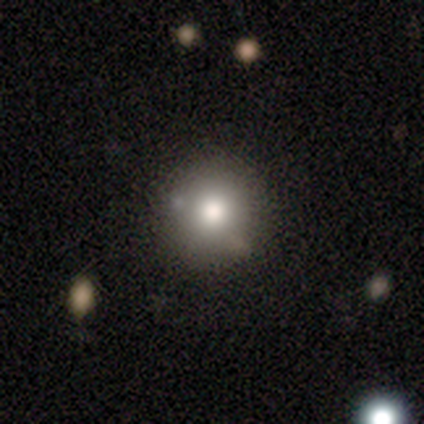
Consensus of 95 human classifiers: Overall: smooth (59%; featured or disk 21%). How rounded: round (91%). Merging: none (79%).